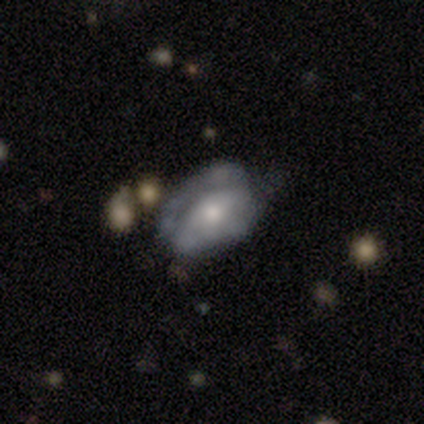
smooth-or-featured: smooth: 60% | featured or disk: 40% | star or artifact: 0%
  how-rounded: round: 33% (tied) | in between: 33% (tied) | cigar-shaped: 33% (tied)
  merging: major disturbance: 100% | none: 0% | minor disturbance: 0% | merger: 0%